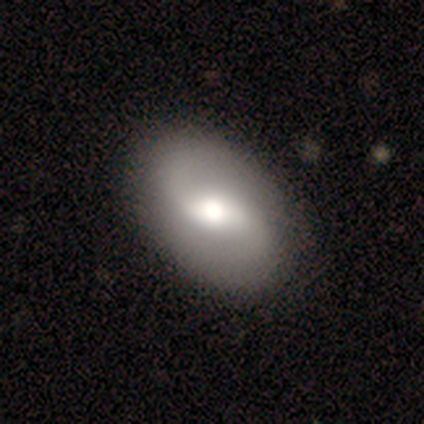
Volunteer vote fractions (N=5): Volunteers were most divided on "smooth or featured": smooth: 60%, featured or disk: 40%, star or artifact: 0%. More confident: how rounded — in between (100%); merging — none (60%).